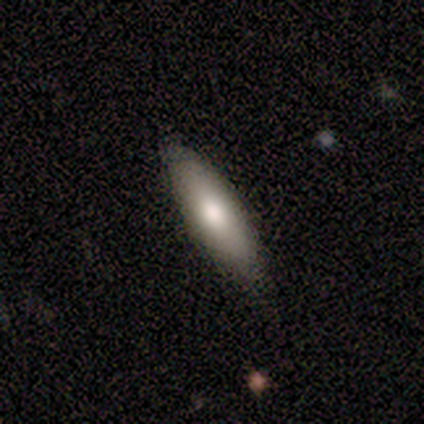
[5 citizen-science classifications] Smooth or featured?
  - smooth: 80% *
  - star or artifact: 20%
  - featured or disk: 0%
How rounded?
  - in between: 50% * (tied)
  - cigar-shaped: 50% * (tied)
  - round: 0%
Merging?
  - none: 75% *
  - major disturbance: 25%
  - minor disturbance: 0%
  - merger: 0%